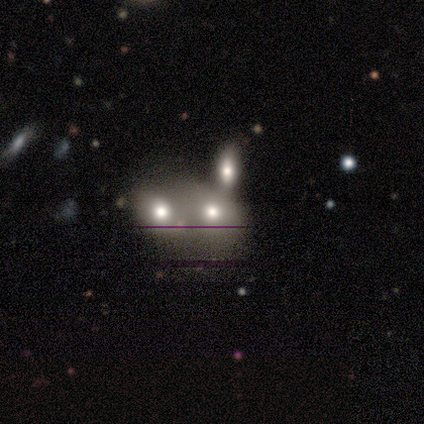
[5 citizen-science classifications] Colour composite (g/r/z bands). It shows a smooth galaxy with no disk features (60%) that is round (67%). Merging: merger (60%).